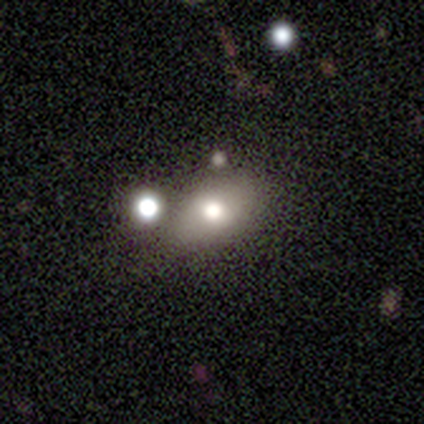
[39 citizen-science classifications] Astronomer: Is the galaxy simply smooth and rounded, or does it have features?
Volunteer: smooth — 72%.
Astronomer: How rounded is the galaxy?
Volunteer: in between — 96%.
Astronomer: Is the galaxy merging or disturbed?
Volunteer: none — 64%.